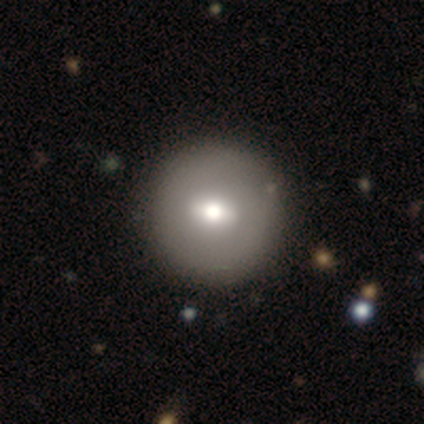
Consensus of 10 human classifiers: A smooth galaxy with no disk features (50%) that is round (100%). Merging: none (89%).